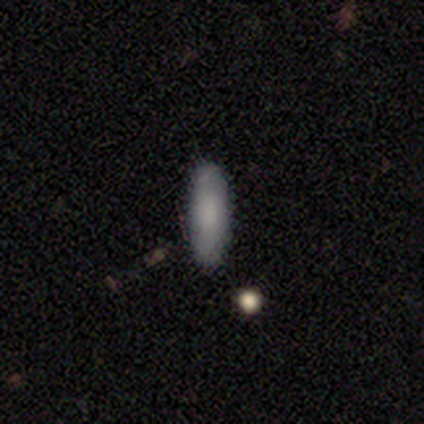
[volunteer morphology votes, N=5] Smooth or featured: smooth — 80% (featured or disk — 20%)
How rounded: in between — 75% (cigar-shaped — 25%)
Merging: none — 80% (merger — 20%)